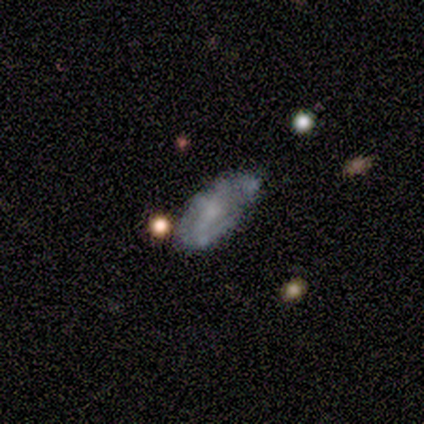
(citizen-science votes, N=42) This appears to be a featured or disk galaxy (62%) with no bar (60%), tight (50%) spiral arms (72%) and a moderate central bulge (48%). Merging: none (48%).